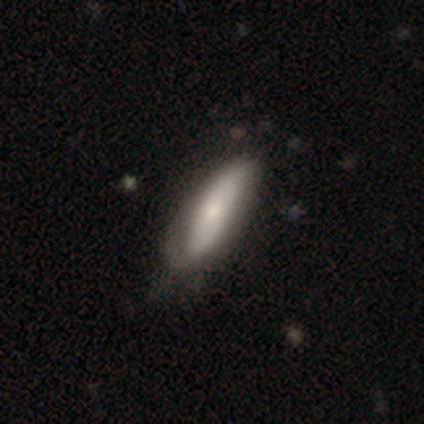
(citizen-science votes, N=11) smooth 73%, featured or disk 27%, star or artifact 0%. Down the decision tree: how rounded — cigar-shaped (62%); merging — none (45%, tied with minor disturbance).